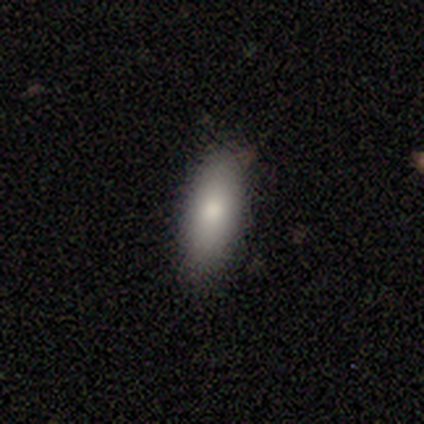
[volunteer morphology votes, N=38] Smooth or featured? smooth (87%)
How rounded? in between (79%)
Merging? none (77%)